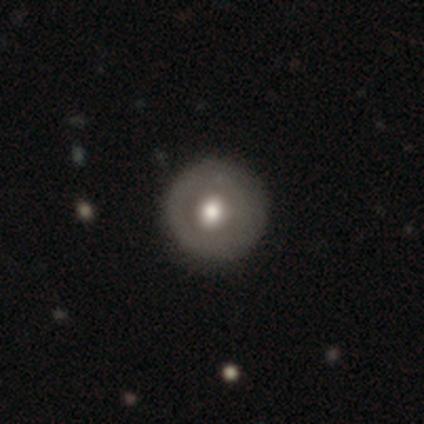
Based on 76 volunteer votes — This appears to be a smooth galaxy with no disk features (53%) that is round (100%). Merging: none (42%).